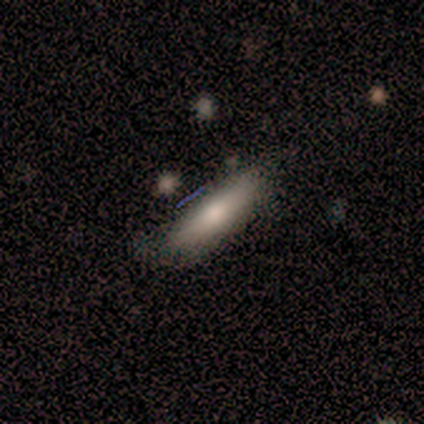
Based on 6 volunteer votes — Morphology: type=featured or disk (67%); edge-on=yes (50%, tied with no); edge-on bulge=none (50%, tied with rounded); merging=none (80%).